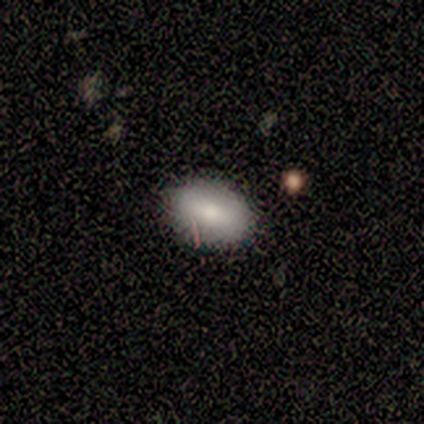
Smooth or featured? smooth (80%)
How rounded? in between (100%)
Merging? none (80%)